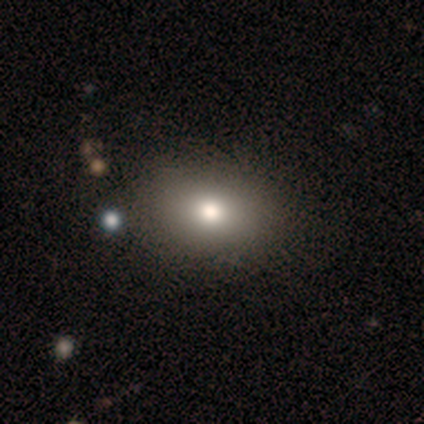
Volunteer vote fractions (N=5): Overall: star or artifact (60%; smooth 40%).